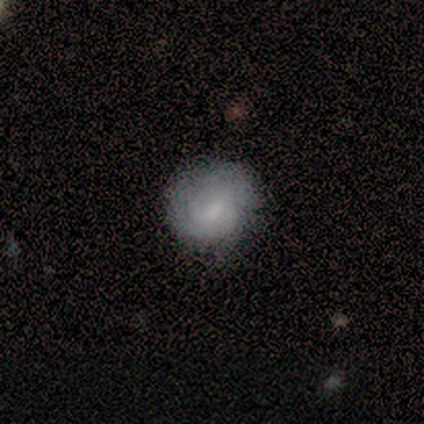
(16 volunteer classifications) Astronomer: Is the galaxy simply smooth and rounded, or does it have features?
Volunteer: smooth — 69%.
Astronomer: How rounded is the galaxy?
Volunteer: round — 91%.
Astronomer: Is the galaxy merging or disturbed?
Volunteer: none — 62%.